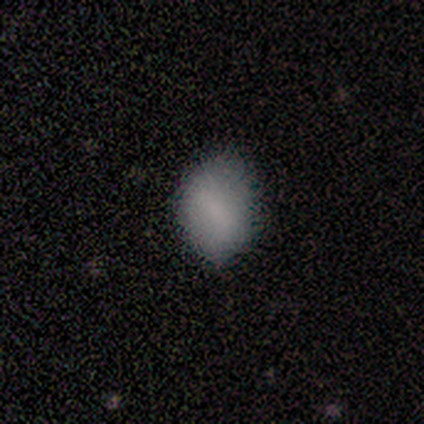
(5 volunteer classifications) smooth_or_featured: smooth (p=1.00)
how_rounded: in between (p=1.00)
merging: minor disturbance (p=0.60) [alt: none p=0.40]